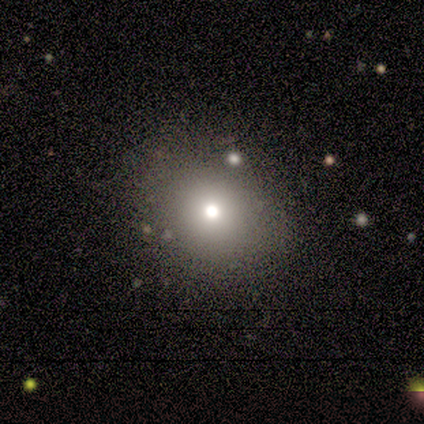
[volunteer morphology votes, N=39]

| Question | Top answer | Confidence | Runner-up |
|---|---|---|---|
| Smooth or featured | smooth | 90% | featured or disk (10%) |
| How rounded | round | 66% | in between (34%) |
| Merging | none | 85% | minor disturbance (13%) |